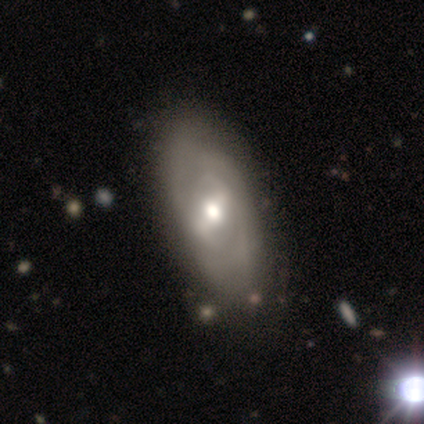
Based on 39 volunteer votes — Morphology: type=featured or disk (69%); edge-on=no (100%); bar=strong (56%); spiral arms=yes (70%); winding=medium (53%); arm count=2 (53%); bulge=moderate (67%); merging=none (58%).